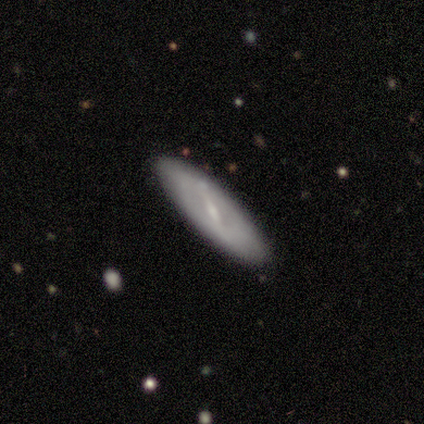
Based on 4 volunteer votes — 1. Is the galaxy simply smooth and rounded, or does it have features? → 50% smooth (tied), 50% featured or disk (tied), 0% star or artifact.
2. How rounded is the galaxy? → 50% in between (tied), 50% cigar-shaped (tied), 0% round.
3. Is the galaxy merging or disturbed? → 75% none, 25% minor disturbance, 0% major disturbance, 0% merger.